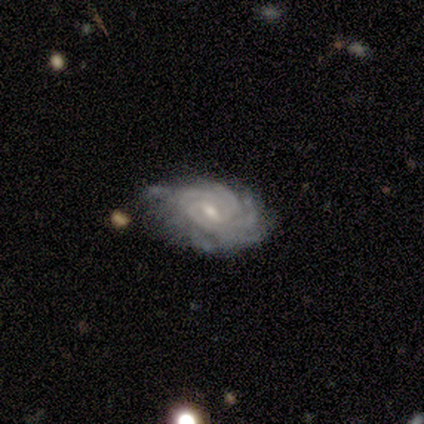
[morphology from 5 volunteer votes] A featured or disk galaxy (60%) with a weak bar (100%), tight (100%) spiral arms (100%) and a moderate central bulge (67%).

Vote fractions:
- Smooth or featured? featured or disk: 60% / smooth: 40% / star or artifact: 0%
- Edge-on disk? no: 100% / yes: 0%
- Bar? weak: 100% / strong: 0% / no: 0%
- Spiral arms? yes: 100% / no: 0%
- Spiral winding? tight: 100% / medium: 0% / loose: 0%
- Spiral arm count? can't tell: 67% / more than 4: 33% / 1: 0% / 2: 0% / 3: 0% / 4: 0%
- Bulge size? moderate: 67% / small: 33% / dominant: 0% / large: 0% / none: 0%
- Merging? none: 40% / minor disturbance: 20% / major disturbance: 20% / merger: 20%